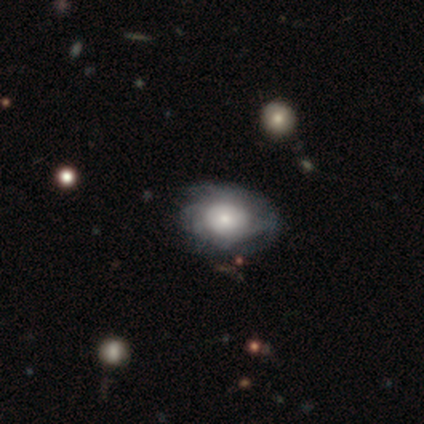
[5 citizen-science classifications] This appears to be a smooth galaxy with no disk features (60%) that is in between round and cigar-shaped (67%). Merging: none (100%).